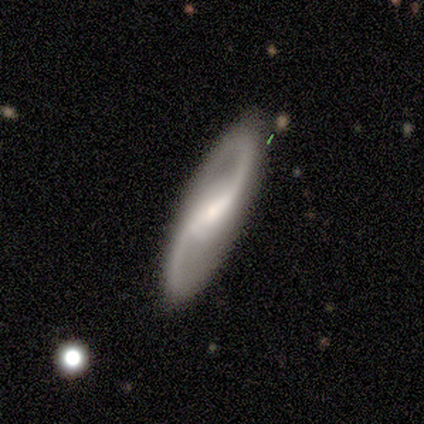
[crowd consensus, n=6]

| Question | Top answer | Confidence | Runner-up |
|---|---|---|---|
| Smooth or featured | featured or disk | 100% | — |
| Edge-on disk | no | 67% | yes (33%) |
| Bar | strong | 50% | weak (25%) |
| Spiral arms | yes | 100% | — |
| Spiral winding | loose | 50% | tight (25%) |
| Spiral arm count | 2 | 100% | — |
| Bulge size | small | 100% | — |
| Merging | none | 67% | minor disturbance (33%) |